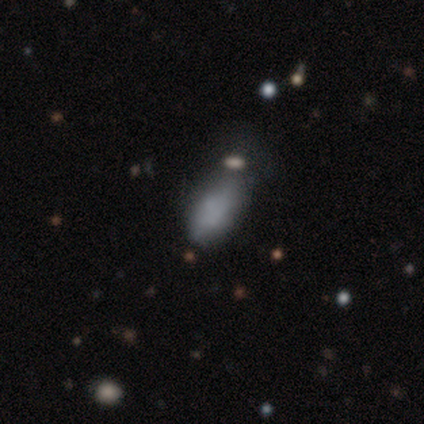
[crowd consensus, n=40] This appears to be a smooth galaxy with no disk features (78%) that is in between round and cigar-shaped (94%). Merging: minor disturbance (37%).